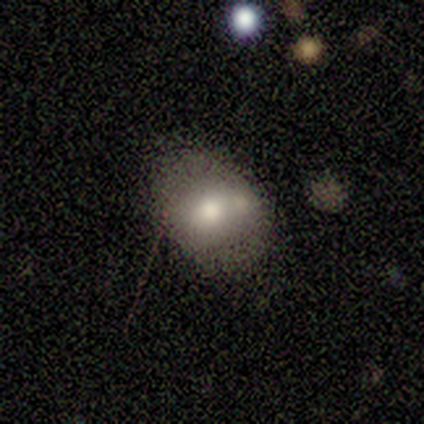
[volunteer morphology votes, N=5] smooth 60%, featured or disk 40%, star or artifact 0%. Down the decision tree: how rounded — in between (100%); merging — none (80%).